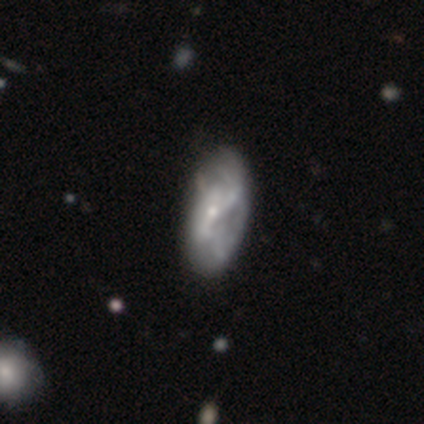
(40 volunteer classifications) featured or disk 68%, smooth 20%, star or artifact 12%. Down the decision tree: edge-on disk — no (93%); bar — no (60%); spiral arms — yes (60%); spiral arm count — can't tell (60%); spiral winding — loose (60%); bulge size — small (72%); merging — none (31%).